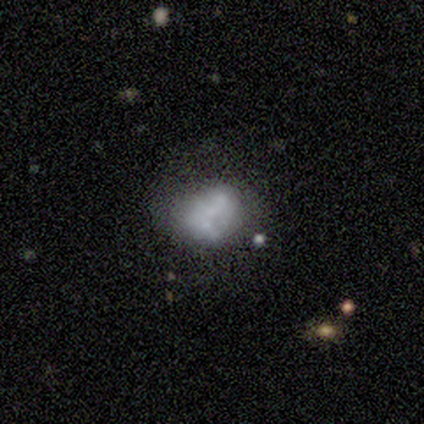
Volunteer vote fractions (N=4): This is possibly a smooth galaxy (50%, tied with featured or disk). How rounded: possibly round (50%, tied with in between). Merging: likely none (75%).